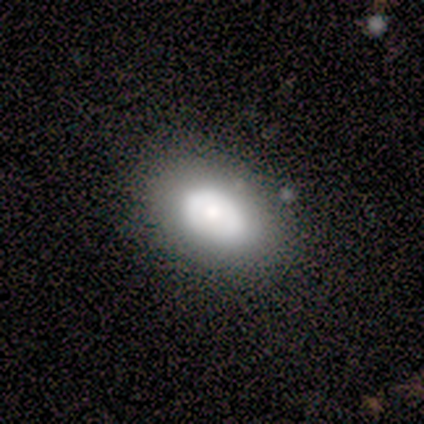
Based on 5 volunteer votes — Smooth or featured? 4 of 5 (80%) said smooth. How rounded? 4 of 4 (100%) said in between. Merging? 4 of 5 (80%) said none.